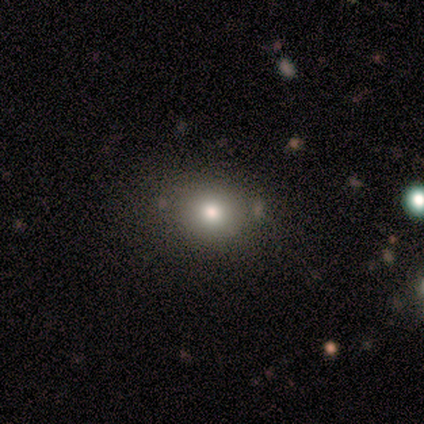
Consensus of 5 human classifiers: A smooth galaxy with no disk features (60%) that is in between round and cigar-shaped (67%).

Vote fractions:
- Smooth or featured? smooth: 60% / featured or disk: 20% / star or artifact: 20%
- How rounded? in between: 67% / round: 33% / cigar-shaped: 0%
- Merging? none: 75% / merger: 25% / minor disturbance: 0% / major disturbance: 0%